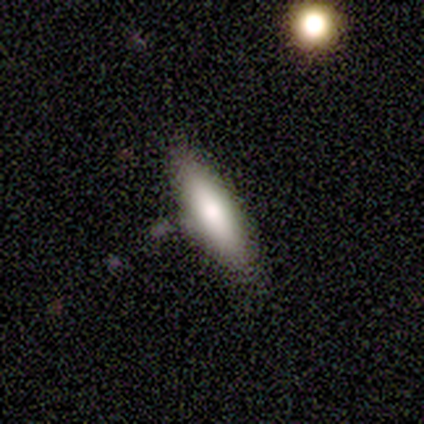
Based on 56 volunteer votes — smooth_or_featured: smooth (p=0.70) [alt: featured or disk p=0.29]
how_rounded: in between (p=0.62) [alt: cigar-shaped p=0.38]
merging: none (p=0.85) [alt: minor disturbance p=0.11]